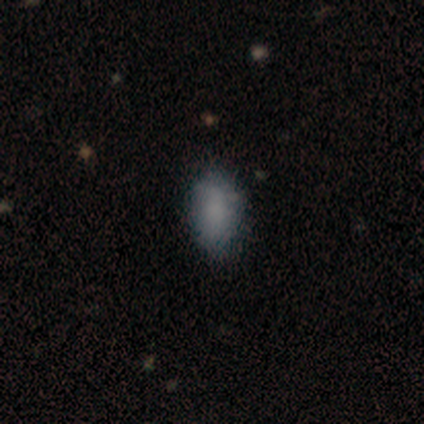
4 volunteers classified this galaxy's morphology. Smooth or featured?
  - smooth: 75% *
  - featured or disk: 25%
  - star or artifact: 0%
How rounded?
  - in between: 100% *
  - round: 0%
  - cigar-shaped: 0%
Merging?
  - none: 50% * (tied)
  - minor disturbance: 50% * (tied)
  - major disturbance: 0%
  - merger: 0%